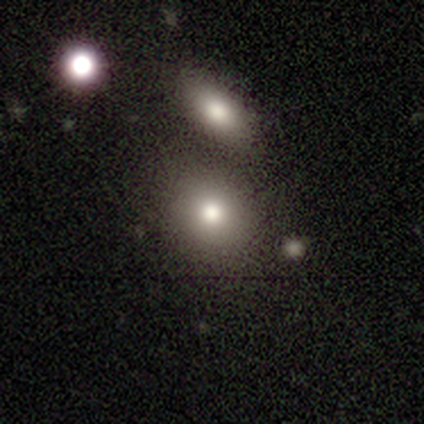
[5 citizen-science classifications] This appears to be a smooth galaxy with no disk features (80%) that is round (75%). Merging: none (100%).